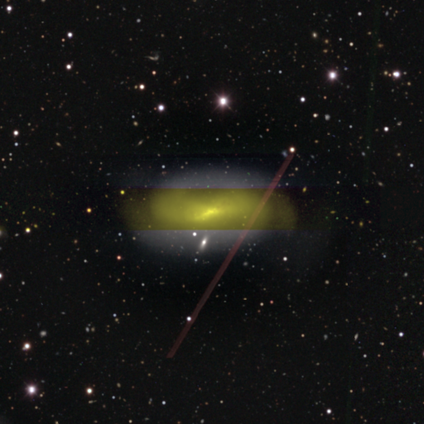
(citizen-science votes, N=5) Q: Smooth or featured?
A: featured or disk (100%)
Q: Edge-on disk?
A: no (80%); runner-up: yes (20%)
Q: Bar?
A: weak (75%); runner-up: no (25%)
Q: Spiral arms?
A: yes (100%)
Q: Spiral winding?
A: medium (75%); runner-up: tight (25%)
Q: Spiral arm count?
A: 2 (100%)
Q: Bulge size?
A: moderate (50%); tied with: small (50%)
Q: Merging?
A: none (60%); runner-up: minor disturbance (20%)